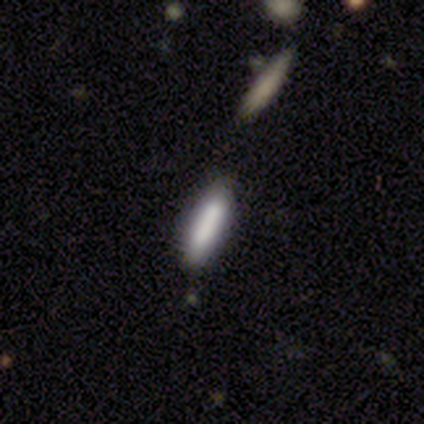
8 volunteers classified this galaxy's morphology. Overall: smooth (75%). How rounded: cigar-shaped (83%). Merging: none (83%).